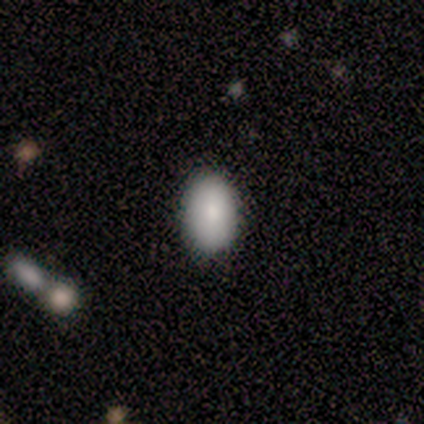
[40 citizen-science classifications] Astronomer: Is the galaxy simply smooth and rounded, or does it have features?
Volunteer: smooth — 90%.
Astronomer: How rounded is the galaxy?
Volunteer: in between — 92%.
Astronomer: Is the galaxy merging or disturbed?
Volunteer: none — 92%.